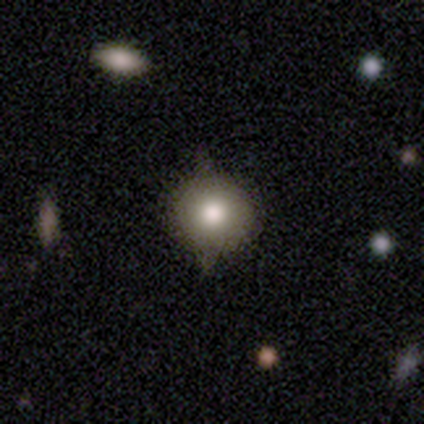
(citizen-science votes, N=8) Smooth or featured?
  - smooth: 75% *
  - featured or disk: 12%
  - star or artifact: 12%
How rounded?
  - round: 83% *
  - in between: 17%
  - cigar-shaped: 0%
Merging?
  - none: 86% *
  - minor disturbance: 14%
  - major disturbance: 0%
  - merger: 0%